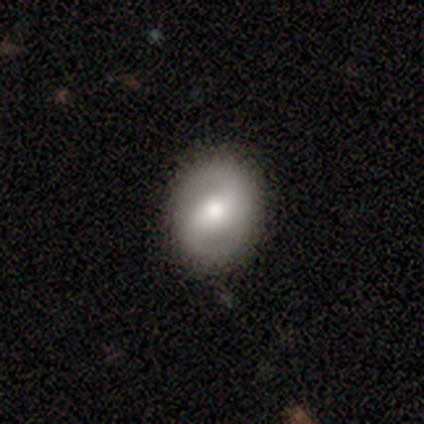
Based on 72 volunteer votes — smooth_or_featured: featured or disk (p=0.69) [alt: smooth p=0.26]
disk_edge_on: no (p=0.98) [alt: yes p=0.02]
bar: weak (p=0.43) [alt: strong p=0.35]
has_spiral_arms: yes (p=0.86) [alt: no p=0.14]
spiral_winding: tight (p=0.40) [alt: medium p=0.38]
spiral_arm_count: 2 (p=0.90) [alt: can't tell p=0.10]
bulge_size: moderate (p=0.61) [alt: large p=0.31]
merging: none (p=0.84) [alt: minor disturbance p=0.09]